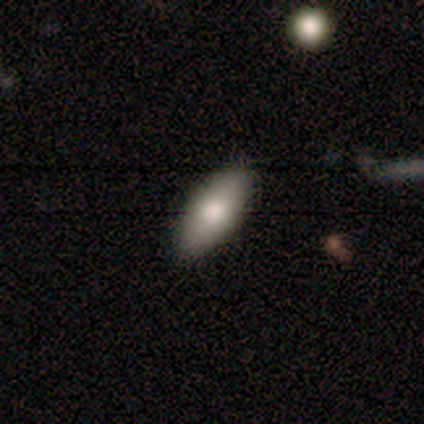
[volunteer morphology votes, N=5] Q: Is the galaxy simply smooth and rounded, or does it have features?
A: smooth — 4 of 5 (80%).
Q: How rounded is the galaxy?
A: in between — 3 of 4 (75%).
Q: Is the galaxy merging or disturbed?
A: none — 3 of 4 (75%).